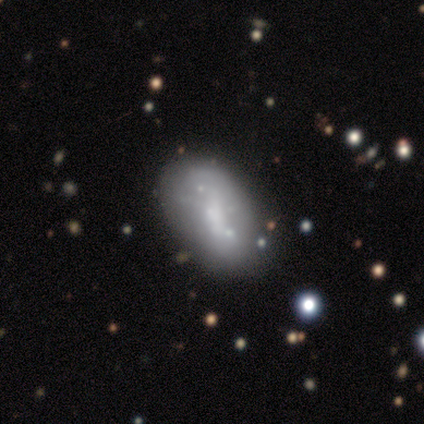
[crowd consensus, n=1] A featured or disk galaxy (100%) with a weak bar (100%), no spiral arms (100%) and a moderate central bulge (100%).

Vote fractions:
- Smooth or featured? featured or disk: 100% / smooth: 0% / star or artifact: 0%
- Edge-on disk? no: 100% / yes: 0%
- Bar? weak: 100% / strong: 0% / no: 0%
- Spiral arms? no: 100% / yes: 0%
- Bulge size? moderate: 100% / dominant: 0% / large: 0% / small: 0% / none: 0%
- Merging? none: 100% / minor disturbance: 0% / major disturbance: 0% / merger: 0%